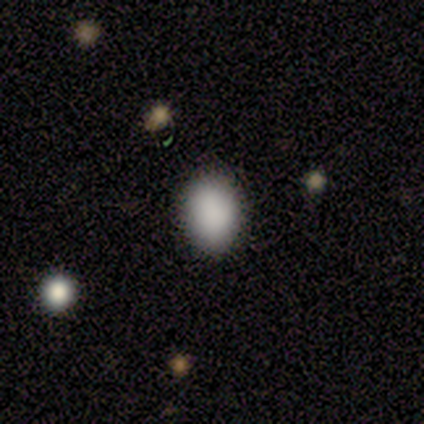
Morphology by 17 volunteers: smooth-or-featured: smooth: 88% | star or artifact: 12% | featured or disk: 0%
  how-rounded: in between: 60% | round: 40% | cigar-shaped: 0%
  merging: none: 87% | minor disturbance: 7% | major disturbance: 7% | merger: 0%